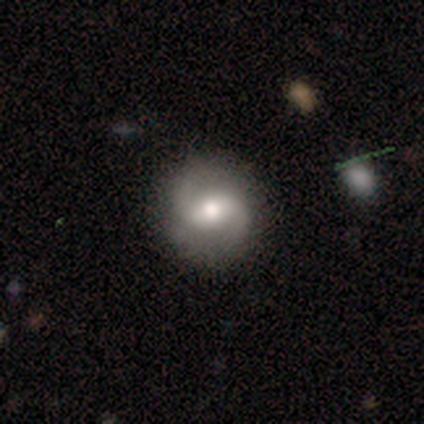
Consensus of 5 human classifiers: This is likely a smooth galaxy (60%). How rounded: clearly round (100%). Merging: clearly none (80%).